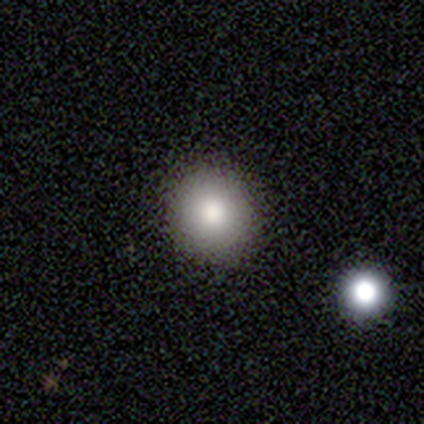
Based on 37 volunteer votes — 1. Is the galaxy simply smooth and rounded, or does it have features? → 86% smooth, 11% star or artifact, 3% featured or disk.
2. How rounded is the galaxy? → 91% round, 9% in between, 0% cigar-shaped.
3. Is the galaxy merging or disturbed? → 100% none, 0% minor disturbance, 0% major disturbance, 0% merger.